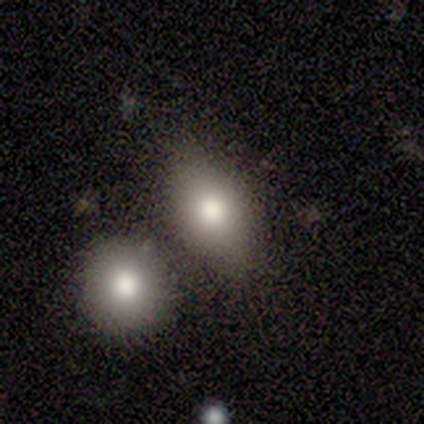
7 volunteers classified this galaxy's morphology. Smooth or featured: star or artifact — 57% (smooth — 43%)